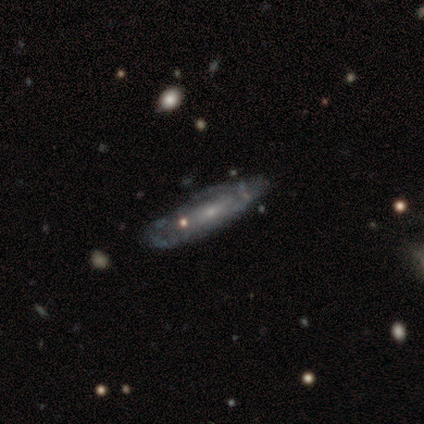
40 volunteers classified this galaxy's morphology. smooth_or_featured: featured or disk (p=0.80) [alt: smooth p=0.20]
disk_edge_on: no (p=0.62) [alt: yes p=0.38]
bar: no (p=0.85) [alt: weak p=0.15]
has_spiral_arms: yes (p=0.55) [alt: no p=0.45]
spiral_winding: medium (p=0.45) [alt: tight p=0.36]
spiral_arm_count: can't tell (p=0.73) [alt: 2 p=0.18]
bulge_size: small (p=0.85) [alt: moderate p=0.10]
merging: none (p=0.62) [alt: minor disturbance p=0.33]